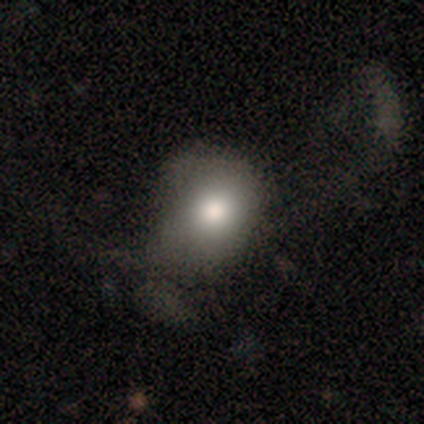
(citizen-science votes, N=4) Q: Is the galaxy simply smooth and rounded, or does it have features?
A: smooth — 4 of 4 (100%).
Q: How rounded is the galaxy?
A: round — 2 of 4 (50%, tied with in between).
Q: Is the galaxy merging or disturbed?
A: none — 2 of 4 (50%, tied with minor disturbance).